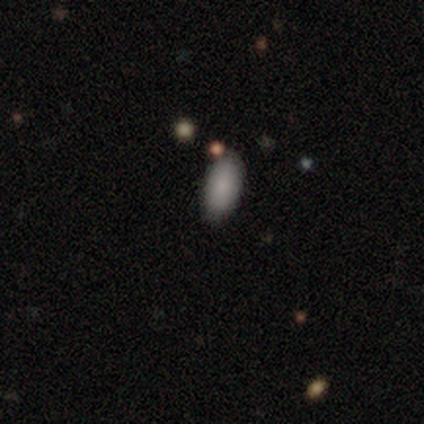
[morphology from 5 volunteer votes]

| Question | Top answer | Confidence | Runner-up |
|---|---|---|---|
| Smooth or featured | smooth | 60% | featured or disk (20%) |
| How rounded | in between | 100% | — |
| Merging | none | 100% | — |